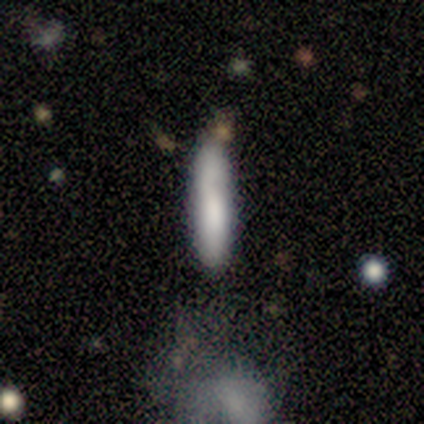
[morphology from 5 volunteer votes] smooth_or_featured: smooth (p=0.80) [alt: star or artifact p=0.20]
how_rounded: cigar-shaped (p=1.00)
merging: none (p=0.75) [alt: merger p=0.25]